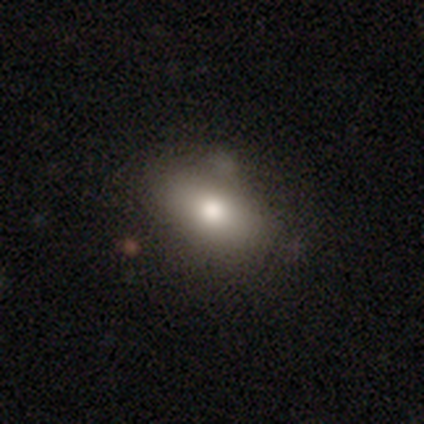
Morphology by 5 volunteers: type=smooth (80%); roundness=in between (100%); merging=none (75%).